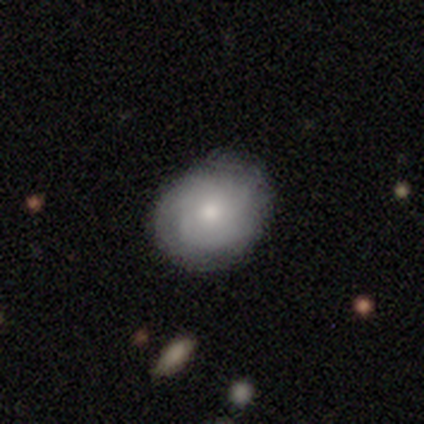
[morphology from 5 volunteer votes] Smooth or featured: featured or disk — 60% (smooth — 40%)
Edge-on disk: no — 100%
Bar: no — 67% (strong — 33%)
Spiral arms: yes — 100%
Spiral winding: medium — 67% (tight — 33%)
Spiral arm count: 1 — 33% (tied with 2 — 33%; can't tell — 33%)
Bulge size: small — 67% (moderate — 33%)
Merging: none — 80% (minor disturbance — 20%)